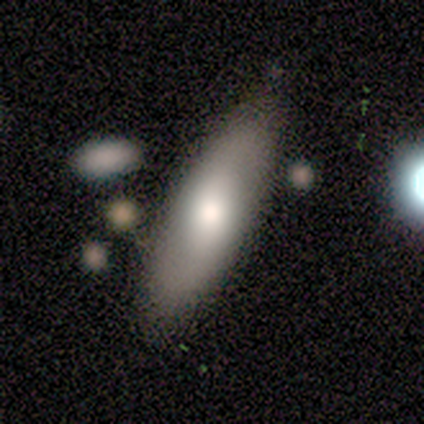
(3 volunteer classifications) Smooth or featured: featured or disk — 67% (smooth — 33%)
Edge-on disk: yes — 50% (tied with no — 50%)
Edge-on bulge: none — 100%
Merging: none — 100%